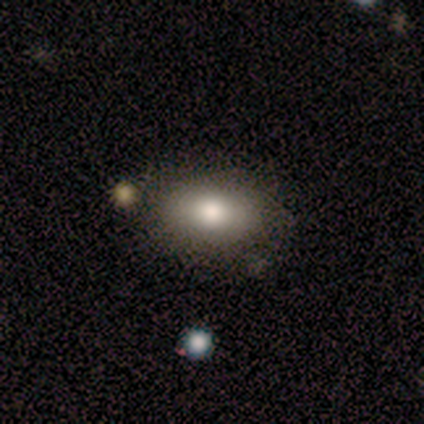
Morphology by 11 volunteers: smooth_or_featured: smooth (p=0.73) [alt: featured or disk p=0.18]
how_rounded: in between (p=1.00)
merging: none (p=0.80) [alt: minor disturbance p=0.20]